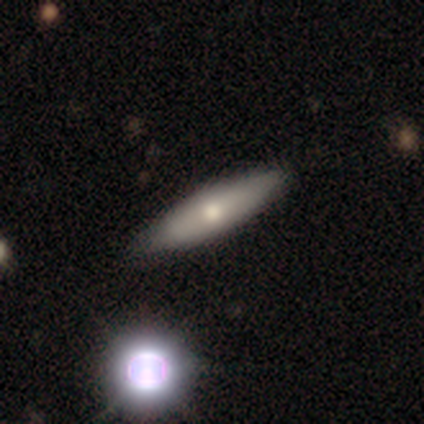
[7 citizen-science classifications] Smooth or featured: smooth — 43% (tied with featured or disk — 43%)
How rounded: cigar-shaped — 67% (in between — 33%)
Merging: none — 83% (minor disturbance — 17%)